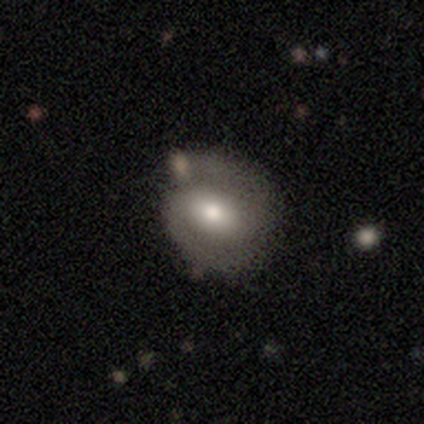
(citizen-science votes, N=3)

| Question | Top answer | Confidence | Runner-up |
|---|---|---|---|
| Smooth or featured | featured or disk | 67% | star or artifact (33%) |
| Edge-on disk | no | 100% | — |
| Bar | strong | 50% | tied: weak (50%) |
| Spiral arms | yes | 100% | — |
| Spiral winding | tight | 50% | tied: medium (50%) |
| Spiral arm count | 2 | 100% | — |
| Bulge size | moderate | 100% | — |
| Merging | none | 100% | — |